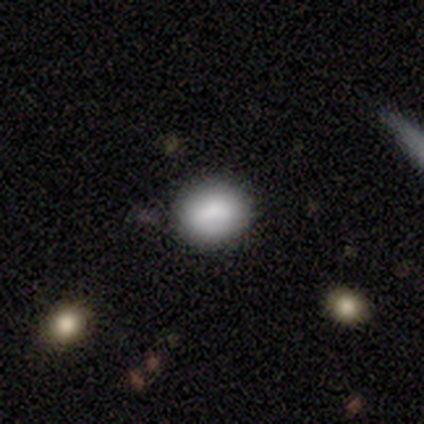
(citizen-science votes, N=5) Smooth or featured? 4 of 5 (80%) said smooth. How rounded? 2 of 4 (50%, tied with in between) said round. Merging? 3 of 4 (75%) said none.